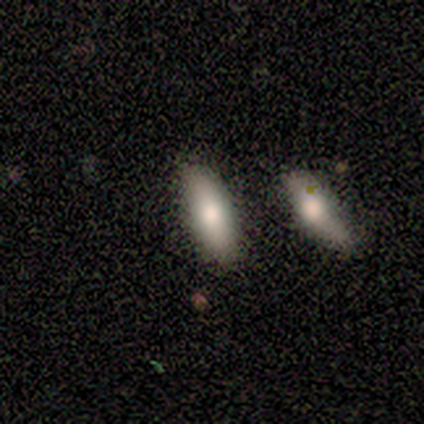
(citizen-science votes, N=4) This appears to be a smooth galaxy with no disk features (100%) that is in between round and cigar-shaped (50%). Merging: none (75%).